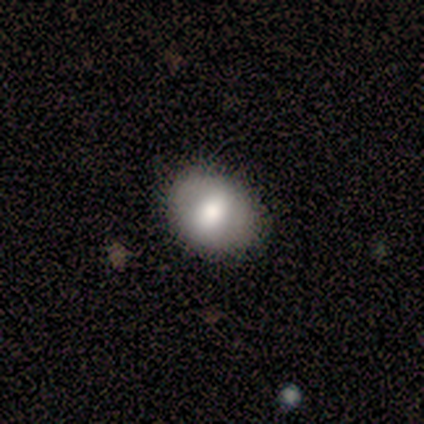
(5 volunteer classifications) Smooth or featured: featured or disk — 60% (smooth — 40%)
Edge-on disk: no — 100%
Bar: weak — 67% (no — 33%)
Spiral arms: no — 100%
Bulge size: moderate — 100%
Merging: none — 100%